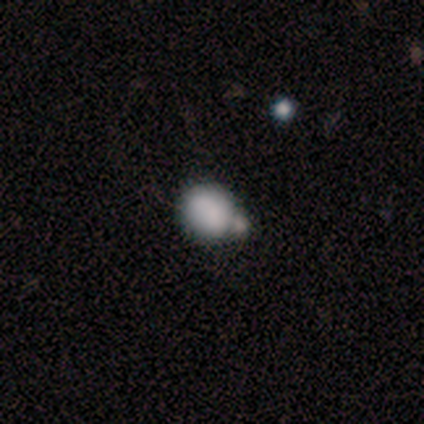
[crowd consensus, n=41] Overall: smooth (80%). How rounded: round (76%). Merging: merger (54%; minor disturbance 18%).